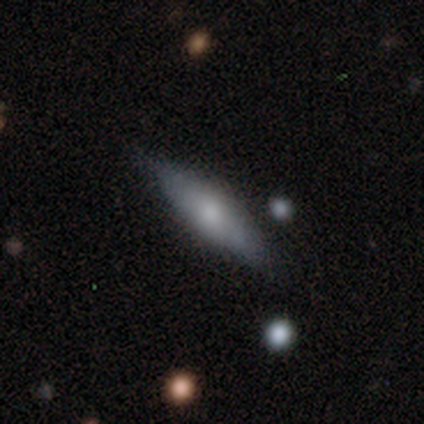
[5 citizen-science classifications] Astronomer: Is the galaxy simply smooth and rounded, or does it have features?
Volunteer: smooth — 60% (runner-up: featured or disk, 40%).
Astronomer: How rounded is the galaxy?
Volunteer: in between — 67%.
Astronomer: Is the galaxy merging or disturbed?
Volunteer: none — 80%.